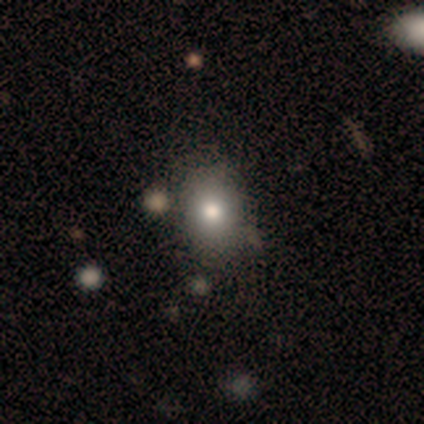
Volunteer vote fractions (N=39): smooth_or_featured: smooth (p=0.90) [alt: featured or disk p=0.10]
how_rounded: in between (p=0.51) [alt: round p=0.49]
merging: none (p=0.62) [alt: major disturbance p=0.08]